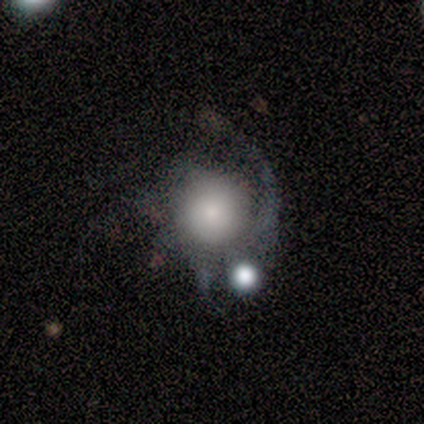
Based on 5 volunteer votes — Smooth or featured? featured or disk (60%)
Edge-on disk? no (100%)
Bar? no (100%)
Spiral arms? yes (100%)
Spiral winding? tight (67%)
Spiral arm count? 1 (33%, tied with more than 4 and can't tell)
Bulge size? large (33%, tied with moderate and small)
Merging? none (60%)